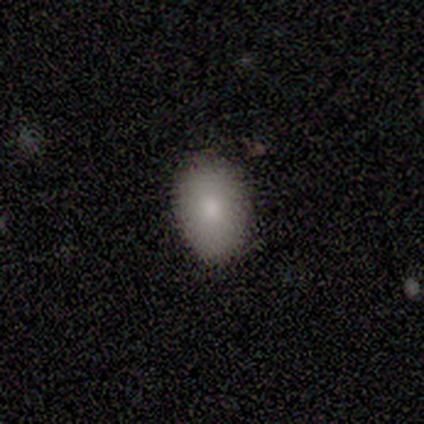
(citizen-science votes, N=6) Q: Smooth or featured?
A: smooth (83%); runner-up: featured or disk (17%)
Q: How rounded?
A: in between (80%); runner-up: round (20%)
Q: Merging?
A: none (100%)